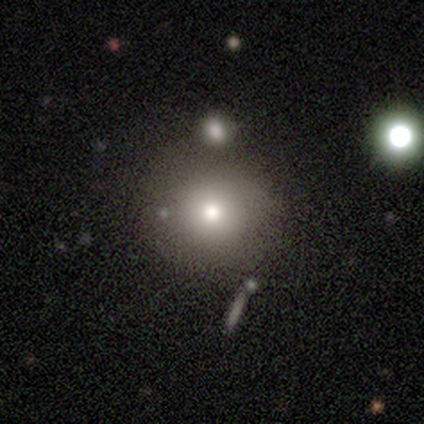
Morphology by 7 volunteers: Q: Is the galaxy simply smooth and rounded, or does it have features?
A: smooth — 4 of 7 (57%).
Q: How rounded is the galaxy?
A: round — 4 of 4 (100%).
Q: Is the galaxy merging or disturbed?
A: none — 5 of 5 (100%).